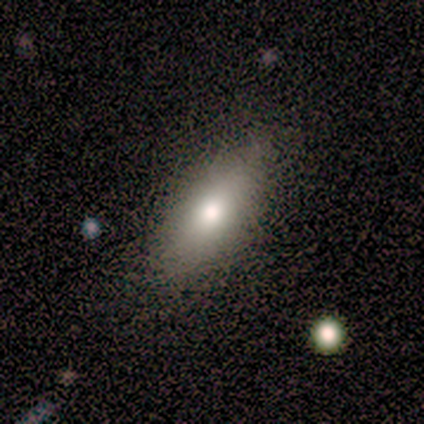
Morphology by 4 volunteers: Q: Smooth or featured?
A: smooth (100%)
Q: How rounded?
A: in between (75%); runner-up: cigar-shaped (25%)
Q: Merging?
A: none (100%)